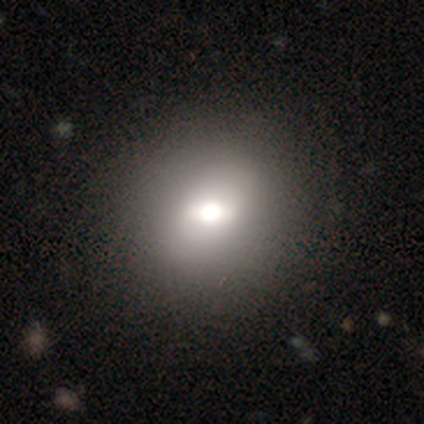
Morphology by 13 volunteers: Overall: smooth (54%; featured or disk 31%). How rounded: in between (57%; round 43%). Merging: none (100%).